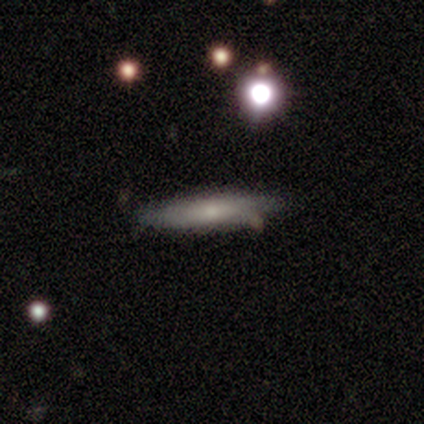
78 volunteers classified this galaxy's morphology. Smooth or featured? 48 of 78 (62%) said smooth. How rounded? 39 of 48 (81%) said cigar-shaped. Merging? 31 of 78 (40%) said none.